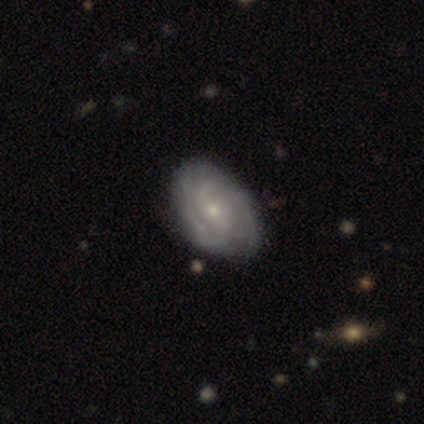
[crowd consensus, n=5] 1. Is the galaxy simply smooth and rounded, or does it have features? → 100% featured or disk, 0% smooth, 0% star or artifact.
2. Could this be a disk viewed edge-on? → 100% no, 0% yes.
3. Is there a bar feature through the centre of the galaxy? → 100% no, 0% strong, 0% weak.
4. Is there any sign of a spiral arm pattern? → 100% yes, 0% no.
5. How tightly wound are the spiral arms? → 100% tight, 0% medium, 0% loose.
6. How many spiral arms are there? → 40% can't tell, 20% 2, 20% 3, 20% more than 4, 0% 1, 0% 4.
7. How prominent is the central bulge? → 100% small, 0% dominant, 0% large, 0% moderate, 0% none.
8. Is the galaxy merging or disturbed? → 100% none, 0% minor disturbance, 0% major disturbance, 0% merger.